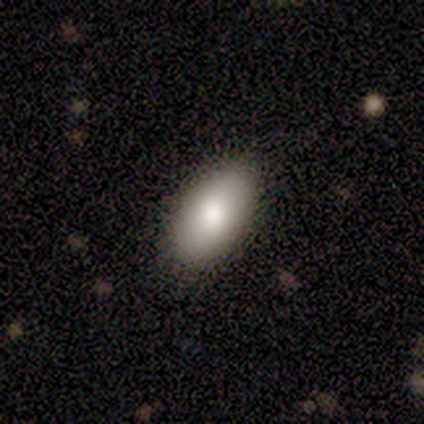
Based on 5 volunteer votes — Smooth or featured? 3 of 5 (60%) said smooth. How rounded? 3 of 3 (100%) said in between. Merging? 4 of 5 (80%) said none.